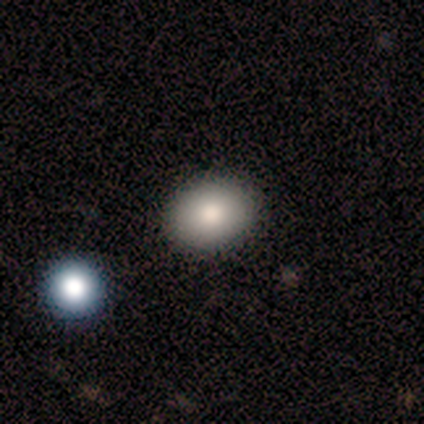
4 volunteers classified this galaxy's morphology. A smooth galaxy with no disk features (100%) that is round (50%, tied with in between).

Vote fractions:
- Smooth or featured? smooth: 100% / featured or disk: 0% / star or artifact: 0%
- How rounded? round: 50% (tied) / in between: 50% (tied) / cigar-shaped: 0%
- Merging? none: 100% / minor disturbance: 0% / major disturbance: 0% / merger: 0%